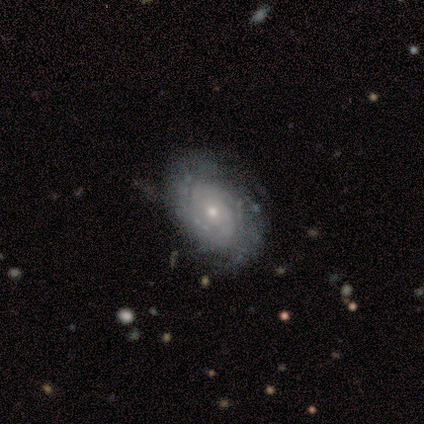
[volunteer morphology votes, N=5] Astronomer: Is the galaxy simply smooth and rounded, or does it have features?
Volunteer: featured or disk — 80%.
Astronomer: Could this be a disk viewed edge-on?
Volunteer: no — 100%.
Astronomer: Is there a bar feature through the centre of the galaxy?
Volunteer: weak — 50%, tied with no at 50%.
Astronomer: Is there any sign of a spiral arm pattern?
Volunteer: yes — 100%.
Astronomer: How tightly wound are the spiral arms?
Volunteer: tight — 50%, tied with medium at 50%.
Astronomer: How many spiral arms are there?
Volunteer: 2 — 50%, tied with can't tell at 50%.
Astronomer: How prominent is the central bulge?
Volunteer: small — 100%.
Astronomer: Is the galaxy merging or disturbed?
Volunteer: none — 50%, tied with minor disturbance at 50%.